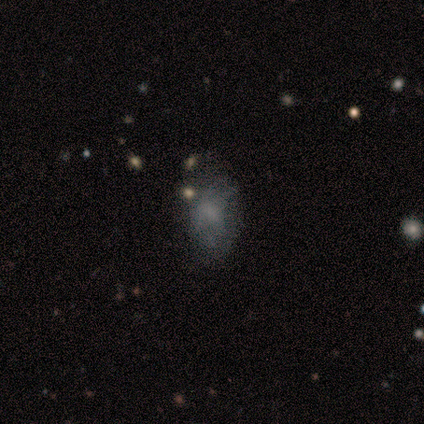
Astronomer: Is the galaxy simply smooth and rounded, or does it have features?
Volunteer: featured or disk — 40%, tied with star or artifact at 40%.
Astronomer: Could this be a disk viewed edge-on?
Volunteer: no — 100%.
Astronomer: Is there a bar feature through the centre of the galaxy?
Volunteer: weak — 50%, tied with no at 50%.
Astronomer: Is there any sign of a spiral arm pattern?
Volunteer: yes — 50%, tied with no at 50%.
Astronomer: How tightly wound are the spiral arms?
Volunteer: medium — 100%.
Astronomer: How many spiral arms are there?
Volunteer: can't tell — 100%.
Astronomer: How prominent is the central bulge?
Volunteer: small — 50%, tied with none at 50%.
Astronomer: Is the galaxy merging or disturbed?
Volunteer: major disturbance — 67%.